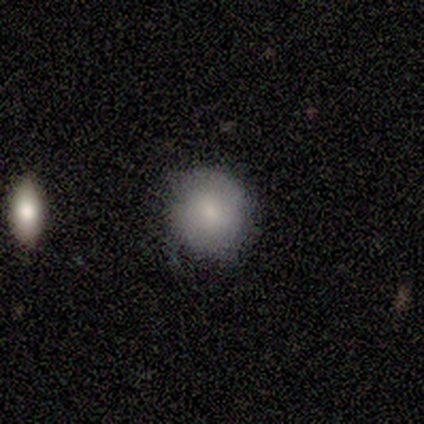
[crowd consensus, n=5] This is likely a featured or disk galaxy (60%). It is likely not viewed edge-on (67%). Bar: clearly no (100%). Spiral arm pattern: clearly no (100%). Central bulge: clearly small (100%). Merging: likely none (60%).